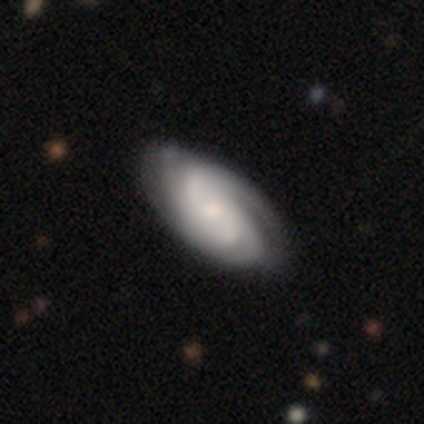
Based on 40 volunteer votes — smooth-or-featured: featured or disk: 85% | smooth: 12% | star or artifact: 2%
  disk-edge-on: no: 97% | yes: 3%
    bar: no: 70% | weak: 21% | strong: 9%
    has-spiral-arms: yes: 100% | no: 0%
      spiral-winding: tight: 58% | medium: 27% | loose: 15%
      spiral-arm-count: can't tell: 39% | 2: 24% | 3: 21% | 4: 12% | more than 4: 3% | 1: 0%
    bulge-size: small: 48% | moderate: 42% | dominant: 3% | large: 3% | none: 3%
  merging: none: 49% | minor disturbance: 8% | merger: 5% | major disturbance: 3%